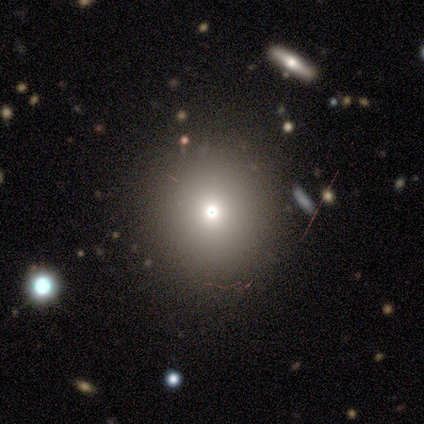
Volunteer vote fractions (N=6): smooth 67%, star or artifact 33%, featured or disk 0%. Down the decision tree: how rounded — round (100%); merging — none (100%).